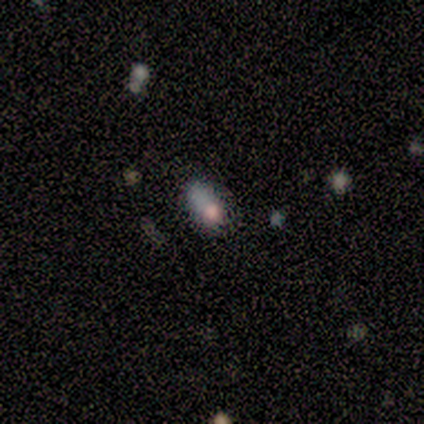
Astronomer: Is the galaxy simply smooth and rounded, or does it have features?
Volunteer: smooth — 80%.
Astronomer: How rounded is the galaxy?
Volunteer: in between — 100%.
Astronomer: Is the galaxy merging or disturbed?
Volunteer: none — 50%, tied with minor disturbance at 50%.